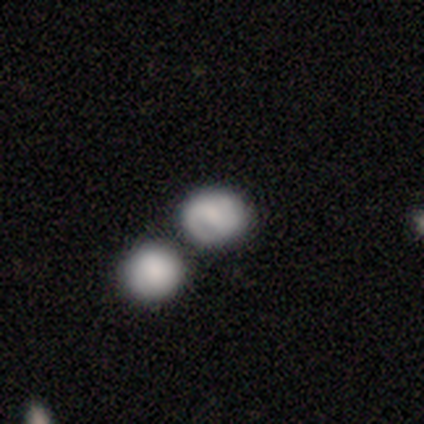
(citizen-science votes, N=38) Smooth or featured: smooth — 53% (featured or disk — 37%)
How rounded: round — 95% (in between — 5%)
Merging: merger — 50% (none — 38%)